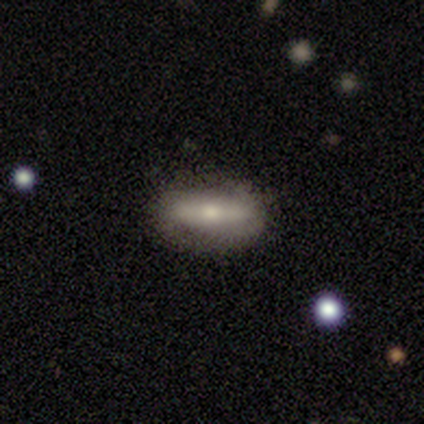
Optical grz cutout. It shows a smooth galaxy with no disk features (60%) that is in between round and cigar-shaped (67%). Merging: none (100%).